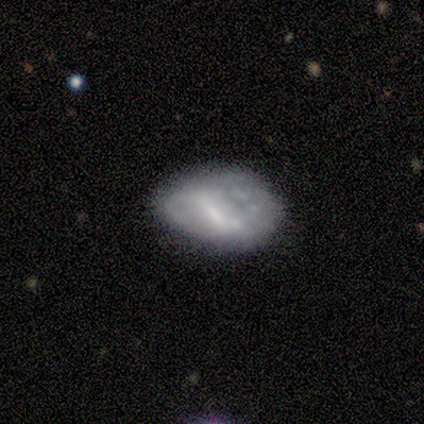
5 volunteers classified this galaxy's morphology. smooth-or-featured: featured or disk: 100% | smooth: 0% | star or artifact: 0%
  disk-edge-on: no: 100% | yes: 0%
    bar: no: 60% | strong: 20% | weak: 20%
    has-spiral-arms: no: 60% | yes: 40%
    bulge-size: none: 40% | large: 20% | moderate: 20% | small: 20% | dominant: 0%
  merging: none: 40% (tied) | major disturbance: 40% (tied) | minor disturbance: 20% | merger: 0%